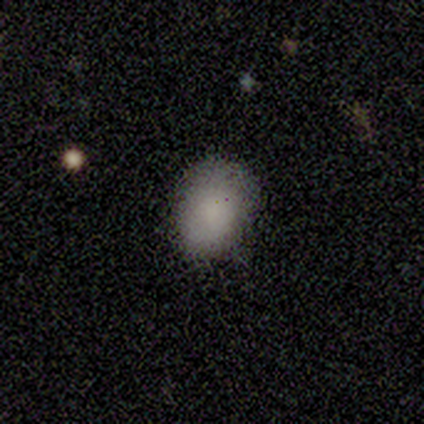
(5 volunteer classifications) Smooth or featured? smooth (100%)
How rounded? in between (80%)
Merging? none (100%)